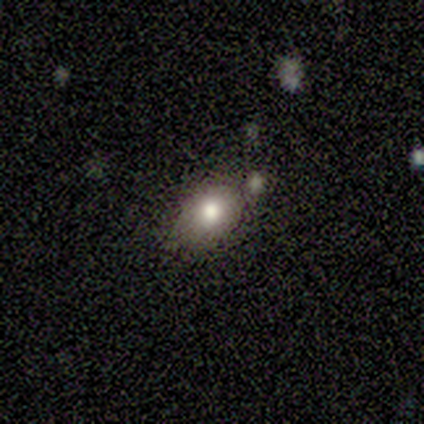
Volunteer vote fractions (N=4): This is clearly a smooth galaxy (100%). How rounded: clearly in between (100%). Merging: likely none (75%).